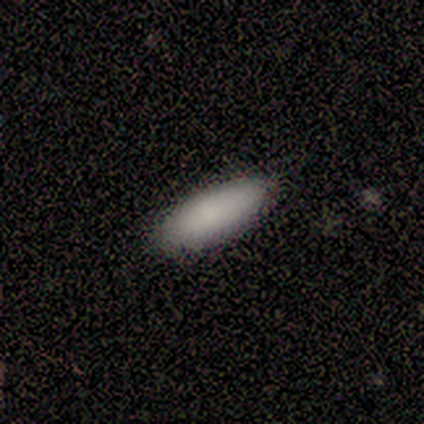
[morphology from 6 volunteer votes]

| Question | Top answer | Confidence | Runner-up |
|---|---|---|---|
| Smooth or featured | smooth | 100% | — |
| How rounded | in between | 67% | cigar-shaped (33%) |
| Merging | none | 100% | — |